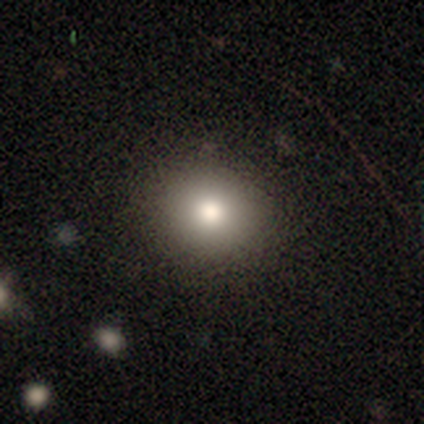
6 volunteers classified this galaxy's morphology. This appears to be a smooth galaxy with no disk features (83%) that is in between round and cigar-shaped (60%). Merging: none (80%).